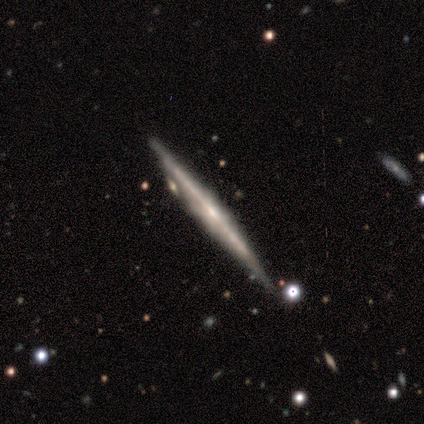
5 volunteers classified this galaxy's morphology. smooth-or-featured: featured or disk: 60% | smooth: 40% | star or artifact: 0%
  disk-edge-on: yes: 100% | no: 0%
    edge-on-bulge: none: 100% | boxy: 0% | rounded: 0%
  merging: none: 80% | minor disturbance: 20% | major disturbance: 0% | merger: 0%